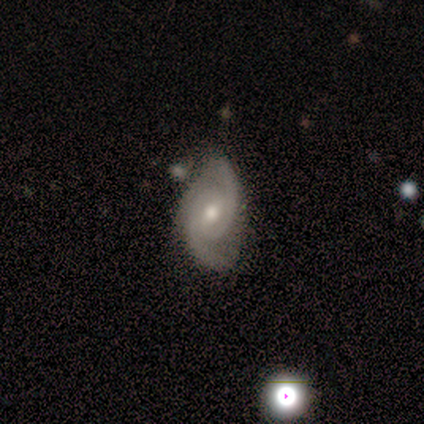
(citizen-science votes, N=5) smooth_or_featured: featured or disk (p=0.80) [alt: smooth p=0.20]
disk_edge_on: no (p=1.00)
bar: no (p=0.75) [alt: strong p=0.25]
has_spiral_arms: yes (p=1.00)
spiral_winding: medium (p=0.50) [alt: tight p=0.25]
spiral_arm_count: 2 (p=1.00)
bulge_size: moderate (p=0.50) [tied with: small p=0.50]
merging: none (p=0.80) [alt: minor disturbance p=0.20]